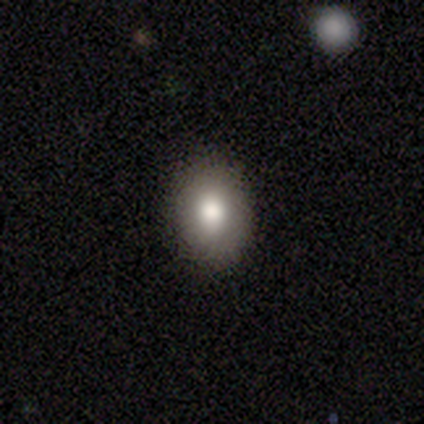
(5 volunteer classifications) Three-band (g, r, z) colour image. It shows a smooth galaxy with no disk features (60%) that is in between round and cigar-shaped (67%). Merging: none (100%).